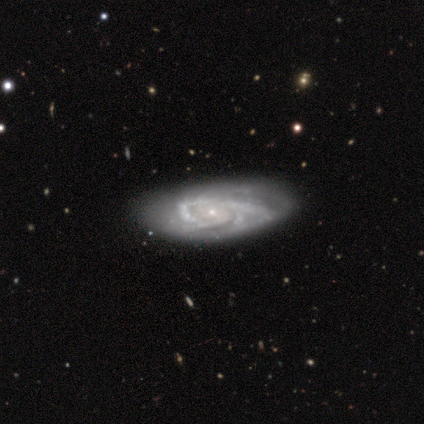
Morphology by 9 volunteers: Smooth or featured? 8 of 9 (89%) said featured or disk. Edge-on disk? 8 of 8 (100%) said no. Bar? 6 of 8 (75%) said no. Spiral arms? 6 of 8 (75%) said yes. Spiral winding? 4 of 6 (67%) said medium. Spiral arm count? 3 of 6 (50%, tied with 3) said 2. Bulge size? 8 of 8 (100%) said small. Merging? 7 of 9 (78%) said none.